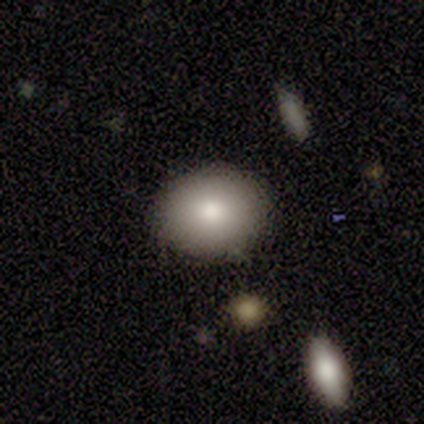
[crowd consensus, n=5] Smooth or featured? smooth (80%)
How rounded? round (75%)
Merging? none (100%)